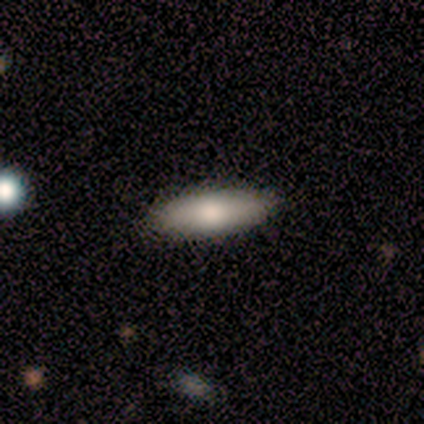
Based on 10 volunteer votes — Smooth or featured? smooth (70%)
How rounded? cigar-shaped (57%)
Merging? none (78%)